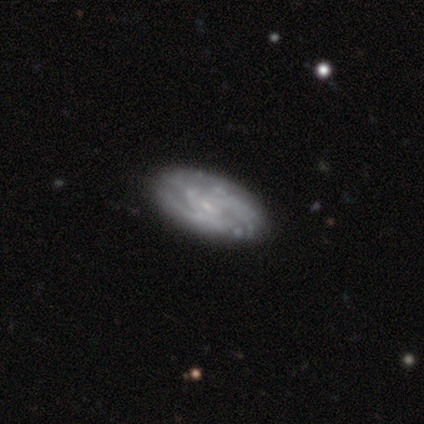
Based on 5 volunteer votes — This appears to be a featured or disk galaxy (100%) with no bar (100%), tight (75%) spiral arms (100%) and a small central bulge (75%). Merging: none (100%).